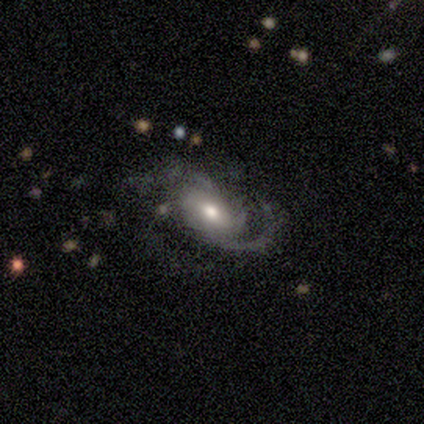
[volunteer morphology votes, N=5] type=featured or disk (80%); edge-on=no (100%); bar=no (75%); spiral arms=yes (100%); winding=loose (50%); arm count=2 (50%, tied with 3); bulge=moderate (75%); merging=none (80%).